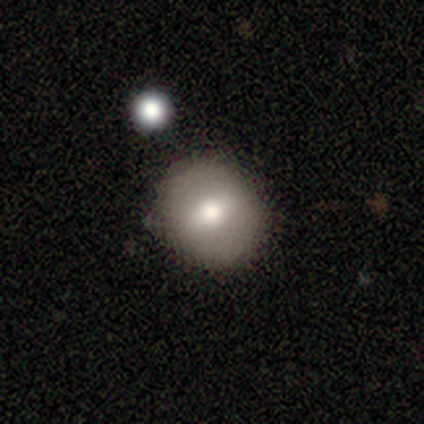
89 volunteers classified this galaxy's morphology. Smooth or featured? smooth (71%)
How rounded? round (79%)
Merging? none (80%)